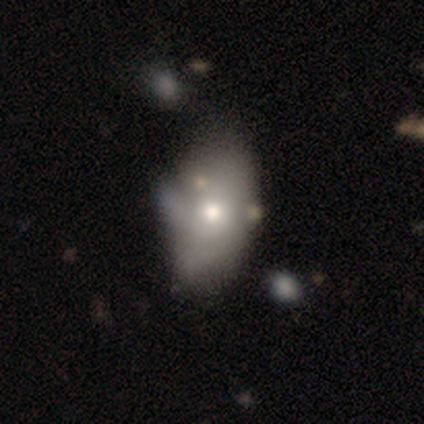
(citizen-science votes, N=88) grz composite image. It shows a smooth galaxy with no disk features (58%) that is in between round and cigar-shaped (90%). Merging: minor disturbance (38%).